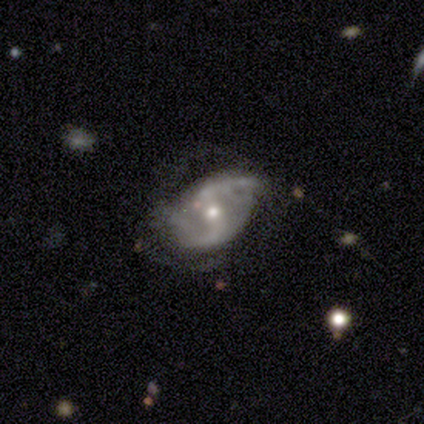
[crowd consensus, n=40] smooth-or-featured: featured or disk: 90% | smooth: 5% | star or artifact: 5%
  disk-edge-on: no: 94% | yes: 6%
    bar: weak: 65% | strong: 18% | no: 18%
    has-spiral-arms: yes: 88% | no: 12%
      spiral-winding: medium: 47% (tied) | loose: 47% (tied) | tight: 7%
      spiral-arm-count: 2: 83% | can't tell: 10% | 1: 3% | more than 4: 3% | 3: 0% | 4: 0%
    bulge-size: moderate: 62% | small: 35% | large: 3% | dominant: 0% | none: 0%
  merging: minor disturbance: 39% | none: 34% | major disturbance: 24% | merger: 3%